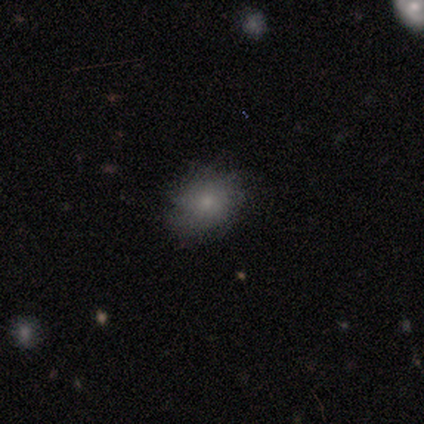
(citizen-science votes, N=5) smooth 40% (tied), featured or disk 40% (tied), star or artifact 20%. Down the decision tree: how rounded — round (50%, tied with in between); merging — none (50%, tied with minor disturbance).